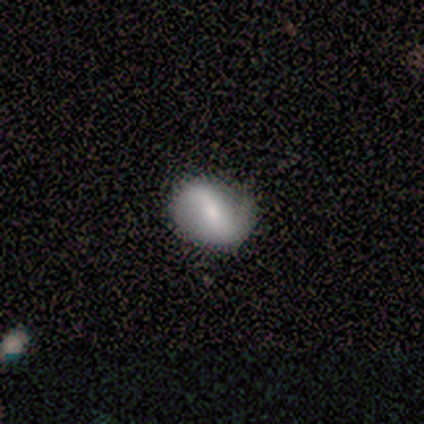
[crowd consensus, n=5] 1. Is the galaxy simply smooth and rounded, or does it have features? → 60% smooth, 40% featured or disk, 0% star or artifact.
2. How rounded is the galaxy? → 67% in between, 33% round, 0% cigar-shaped.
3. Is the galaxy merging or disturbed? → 100% none, 0% minor disturbance, 0% major disturbance, 0% merger.